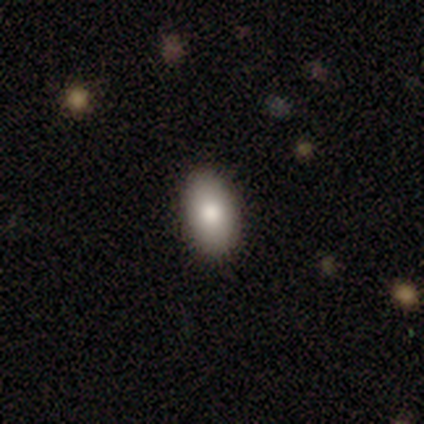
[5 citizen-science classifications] Smooth or featured? 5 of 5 (100%) said smooth. How rounded? 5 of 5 (100%) said in between. Merging? 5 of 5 (100%) said none.